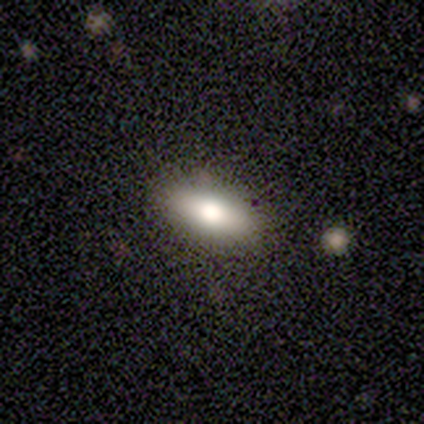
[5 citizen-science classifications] Overall: smooth (80%). How rounded: in between (100%). Merging: none (60%; minor disturbance 20%).